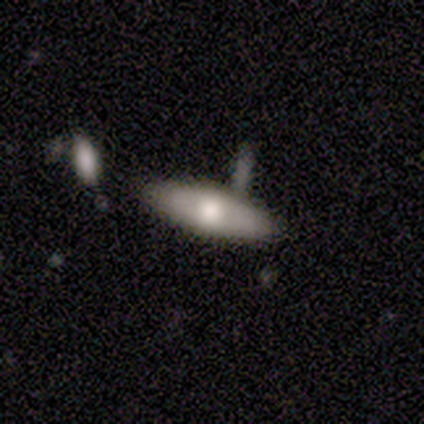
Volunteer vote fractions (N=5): smooth-or-featured: smooth: 60% | featured or disk: 40% | star or artifact: 0%
  how-rounded: in between: 100% | round: 0% | cigar-shaped: 0%
  merging: none: 100% | minor disturbance: 0% | major disturbance: 0% | merger: 0%